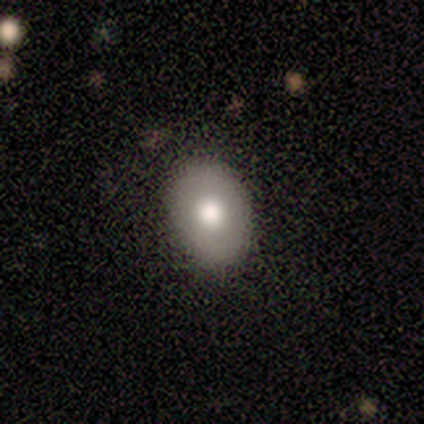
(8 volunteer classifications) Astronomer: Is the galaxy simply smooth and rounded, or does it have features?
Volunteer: smooth — 88%.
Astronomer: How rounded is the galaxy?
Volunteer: in between — 71%.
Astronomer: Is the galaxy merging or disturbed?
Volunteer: none — 100%.